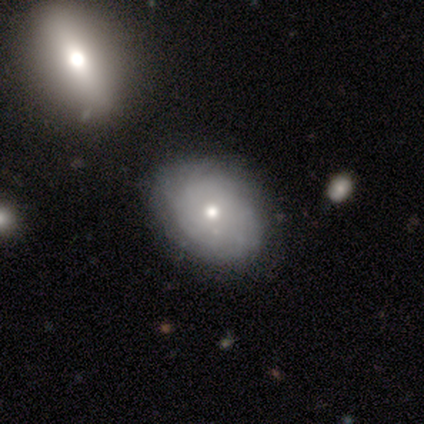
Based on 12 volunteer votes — This is possibly a smooth galaxy (50%, tied with featured or disk). How rounded: clearly in between (83%). Merging: clearly none (83%).